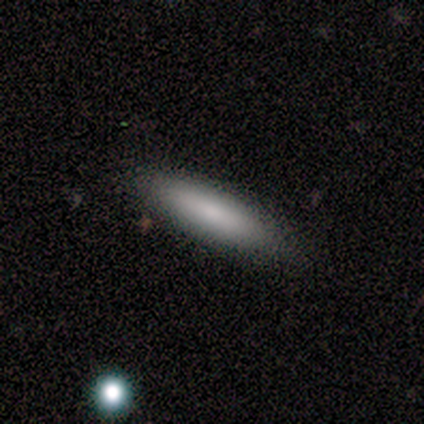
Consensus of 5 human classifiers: A smooth galaxy with no disk features (80%) that is cigar-shaped (100%).

Vote fractions:
- Smooth or featured? smooth: 80% / featured or disk: 20% / star or artifact: 0%
- How rounded? cigar-shaped: 100% / round: 0% / in between: 0%
- Merging? none: 100% / minor disturbance: 0% / major disturbance: 0% / merger: 0%